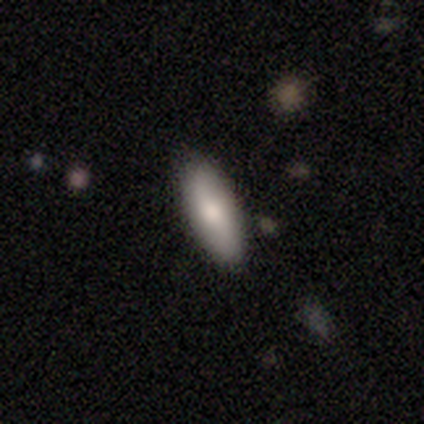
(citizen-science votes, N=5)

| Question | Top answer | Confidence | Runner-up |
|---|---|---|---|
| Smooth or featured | smooth | 60% | featured or disk (40%) |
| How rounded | in between | 100% | — |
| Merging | none | 100% | — |